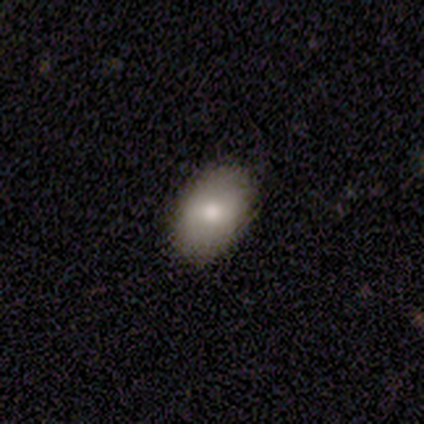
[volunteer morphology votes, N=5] Q: Smooth or featured?
A: smooth (80%); runner-up: featured or disk (20%)
Q: How rounded?
A: in between (100%)
Q: Merging?
A: none (80%); runner-up: minor disturbance (20%)